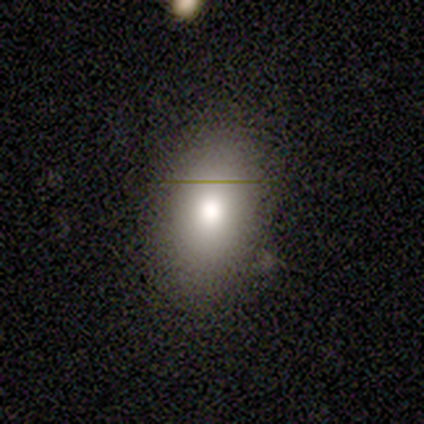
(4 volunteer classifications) smooth_or_featured: smooth (p=1.00)
how_rounded: in between (p=1.00)
merging: none (p=0.50) [alt: minor disturbance p=0.25]